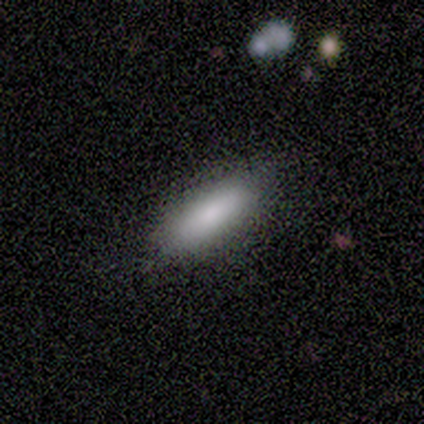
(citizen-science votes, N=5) Smooth or featured? 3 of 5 (60%) said smooth. How rounded? 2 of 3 (67%) said in between. Merging? 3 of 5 (60%) said none.